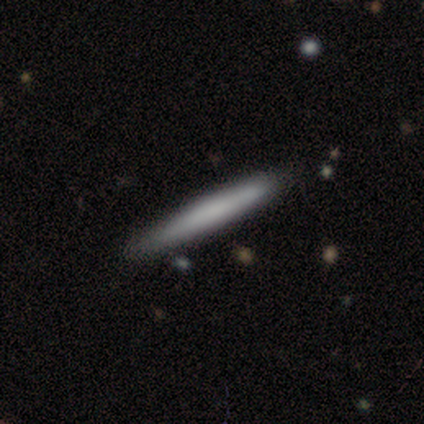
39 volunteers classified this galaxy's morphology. A smooth galaxy with no disk features (72%) that is cigar-shaped (93%).

Vote fractions:
- Smooth or featured? smooth: 72% / featured or disk: 21% / star or artifact: 8%
- How rounded? cigar-shaped: 93% / round: 4% / in between: 4%
- Merging? none: 56% / minor disturbance: 6% / major disturbance: 3% / merger: 3%